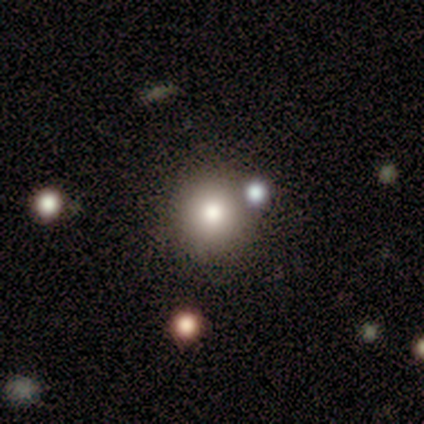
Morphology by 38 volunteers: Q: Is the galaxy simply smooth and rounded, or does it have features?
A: smooth — 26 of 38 (68%).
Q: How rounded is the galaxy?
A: round — 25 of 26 (96%).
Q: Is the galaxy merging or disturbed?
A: none — 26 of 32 (81%).